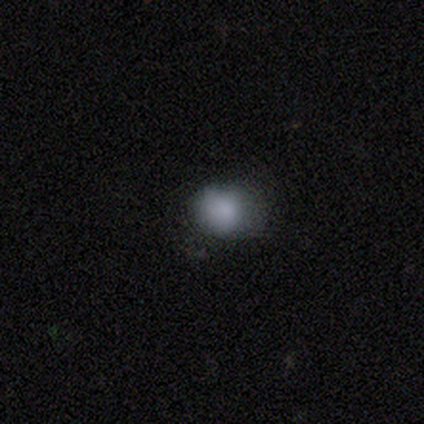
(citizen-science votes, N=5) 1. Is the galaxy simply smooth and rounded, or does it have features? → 100% smooth, 0% featured or disk, 0% star or artifact.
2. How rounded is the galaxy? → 100% round, 0% in between, 0% cigar-shaped.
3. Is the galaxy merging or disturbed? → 60% none, 20% minor disturbance, 20% major disturbance, 0% merger.